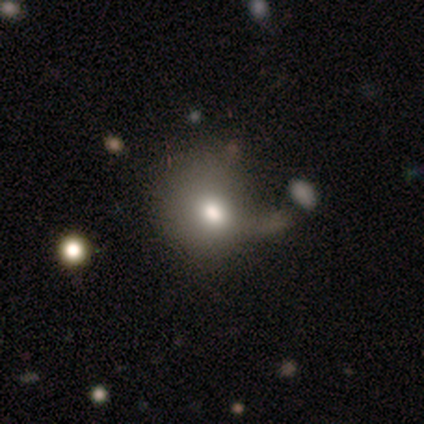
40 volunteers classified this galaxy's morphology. Smooth or featured? 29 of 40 (72%) said smooth. How rounded? 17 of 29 (59%) said in between. Merging? 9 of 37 (24%) said minor disturbance.